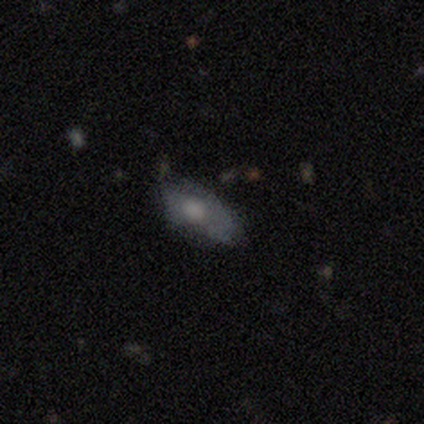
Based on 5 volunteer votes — Smooth or featured: smooth — 60% (featured or disk — 40%)
How rounded: in between — 100%
Merging: minor disturbance — 60% (none — 40%)